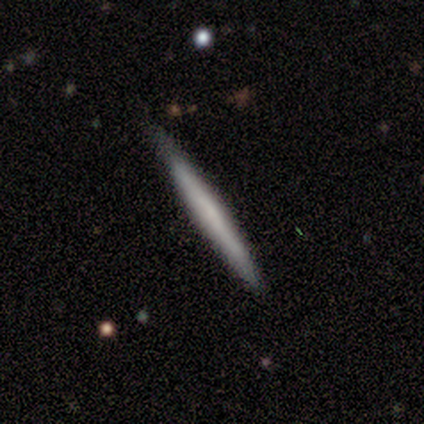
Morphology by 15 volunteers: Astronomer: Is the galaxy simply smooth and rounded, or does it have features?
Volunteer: smooth — 60% (runner-up: featured or disk, 40%).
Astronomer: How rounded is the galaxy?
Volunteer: cigar-shaped — 100%.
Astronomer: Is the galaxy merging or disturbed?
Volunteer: none — 87%.